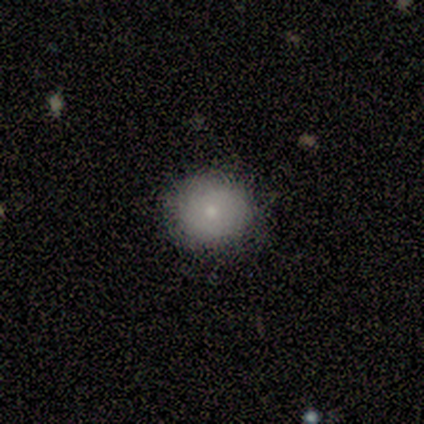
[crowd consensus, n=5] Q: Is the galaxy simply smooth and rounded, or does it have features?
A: smooth — 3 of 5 (60%).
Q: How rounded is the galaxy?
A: round — 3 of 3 (100%).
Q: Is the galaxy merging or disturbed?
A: none — 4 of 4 (100%).